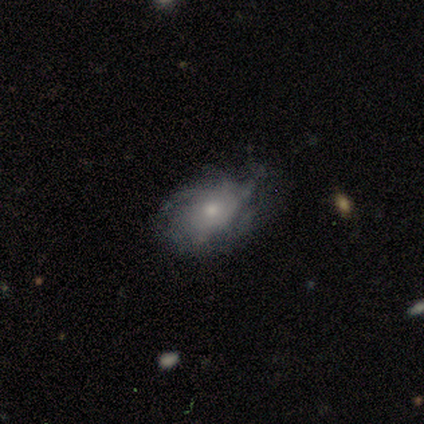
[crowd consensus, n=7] Volunteers were most divided on "smooth or featured": featured or disk: 57%, smooth: 43%, star or artifact: 0%. More confident: edge-on disk — no (100%); bar — no (100%); spiral arms — yes (100%); spiral winding — medium (75%); bulge size — moderate (75%); merging — minor disturbance (57%); spiral arm count — can't tell (50%).